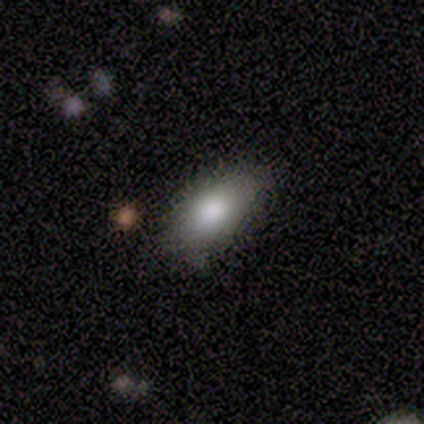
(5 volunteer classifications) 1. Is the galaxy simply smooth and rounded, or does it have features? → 80% smooth, 20% featured or disk, 0% star or artifact.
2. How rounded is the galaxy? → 100% in between, 0% round, 0% cigar-shaped.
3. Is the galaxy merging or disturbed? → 60% none, 40% minor disturbance, 0% major disturbance, 0% merger.